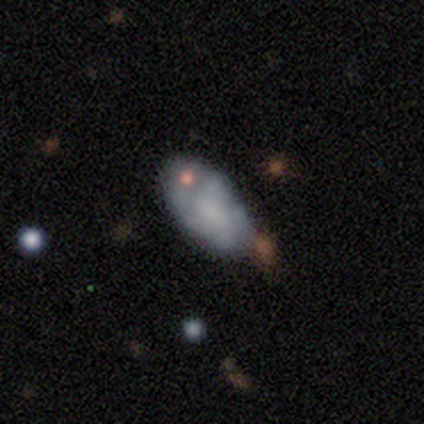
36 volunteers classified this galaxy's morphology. smooth 56%, featured or disk 39%, star or artifact 6%. Down the decision tree: how rounded — in between (85%); merging — none (59%).